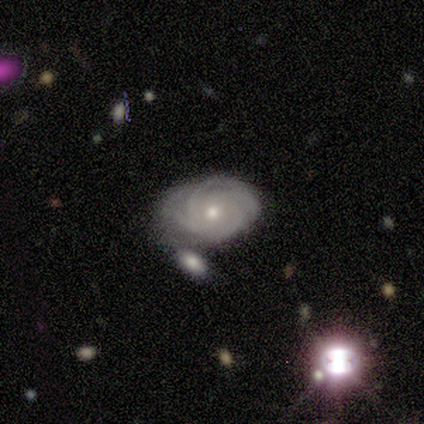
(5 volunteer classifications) Overall: featured or disk (80%). Edge-on disk: no (100%). Bar: no (100%). Spiral arms: yes (50%, tied with no). Spiral arm count: 3 (50%, tied with 4). Spiral winding: tight (50%, tied with medium). Bulge size: moderate (50%, tied with small). Merging: none (80%).